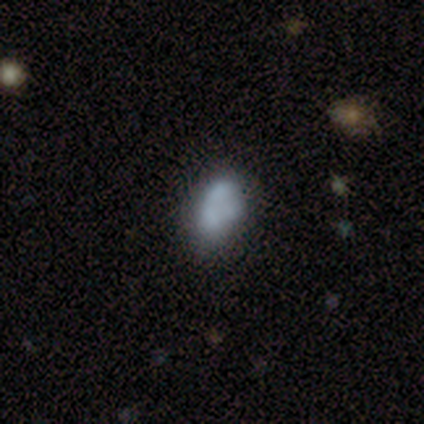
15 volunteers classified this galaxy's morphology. Smooth or featured? 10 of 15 (67%) said smooth. How rounded? 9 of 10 (90%) said in between. Merging? 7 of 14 (50%) said none.